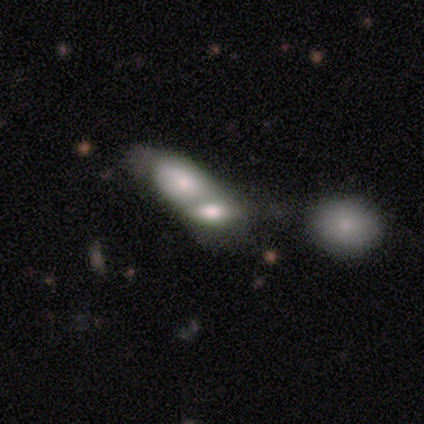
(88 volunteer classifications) smooth 60%, featured or disk 33%, star or artifact 7%. Down the decision tree: how rounded — in between (81%); merging — merger (84%).